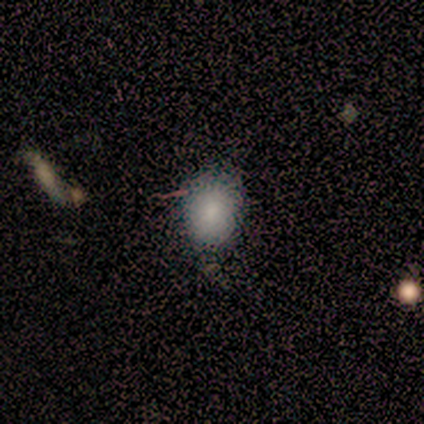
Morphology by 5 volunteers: A smooth galaxy with no disk features (100%) that is in between round and cigar-shaped (80%).

Vote fractions:
- Smooth or featured? smooth: 100% / featured or disk: 0% / star or artifact: 0%
- How rounded? in between: 80% / round: 20% / cigar-shaped: 0%
- Merging? none: 60% / minor disturbance: 40% / major disturbance: 0% / merger: 0%